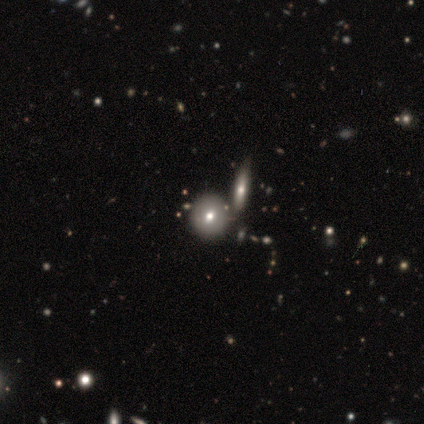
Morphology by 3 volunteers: Volunteers were most divided on "smooth or featured" (3-way tie): smooth: 33%, featured or disk: 33%, star or artifact: 33%. More confident: how rounded — round (100%); merging — none (100%).